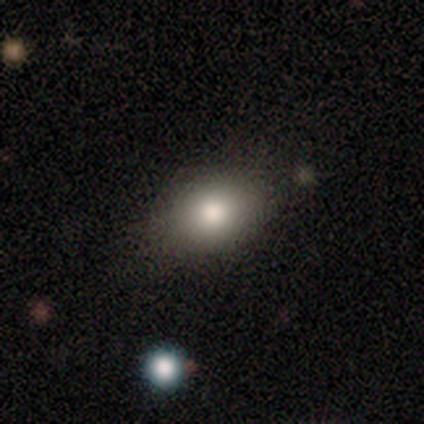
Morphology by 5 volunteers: Smooth or featured: smooth — 80% (star or artifact — 20%)
How rounded: in between — 100%
Merging: none — 100%